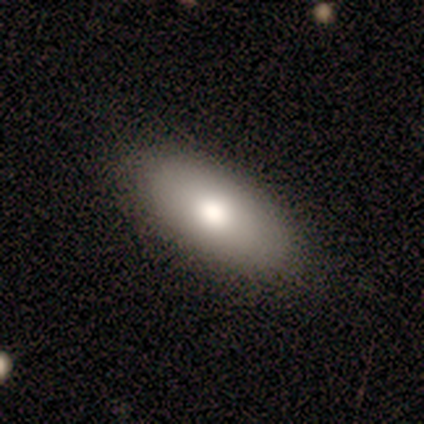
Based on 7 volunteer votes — This appears to be a smooth galaxy with no disk features (86%) that is in between round and cigar-shaped (100%). Merging: none (100%).